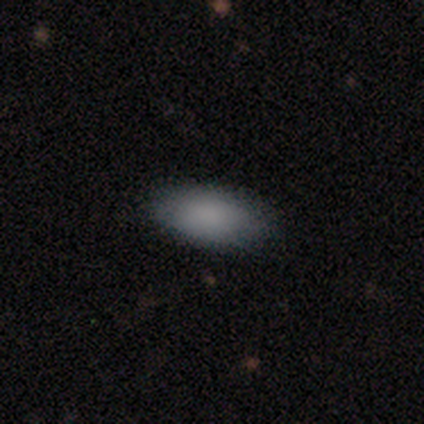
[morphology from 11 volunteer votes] Smooth or featured: smooth — 73% (featured or disk — 18%)
How rounded: in between — 100%
Merging: none — 90% (minor disturbance — 10%)